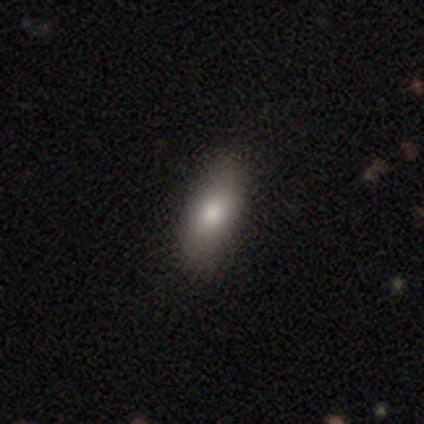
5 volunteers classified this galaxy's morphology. Smooth or featured? 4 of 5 (80%) said smooth. How rounded? 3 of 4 (75%) said in between. Merging? 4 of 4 (100%) said none.